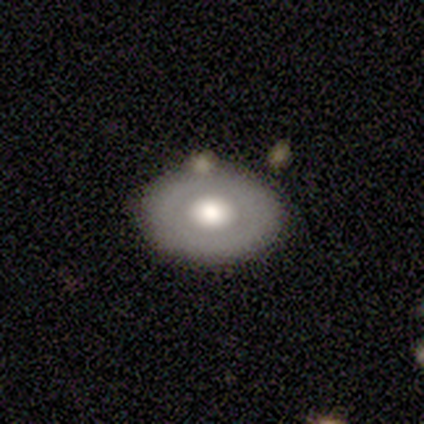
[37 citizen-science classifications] Overall: featured or disk (49%; smooth 46%). Edge-on disk: no (83%). Bar: no (80%). Spiral arms: no (93%). Bulge size: moderate (60%; large 40%). Merging: none (77%).